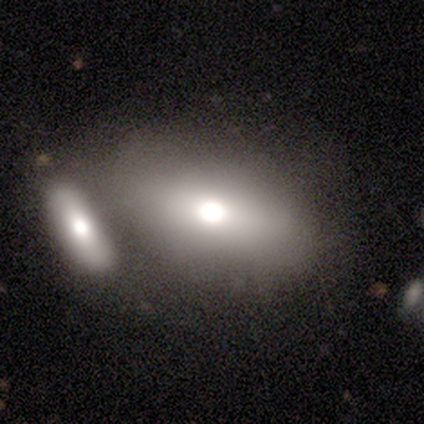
A smooth galaxy with no disk features (77%) that is in between round and cigar-shaped (83%). Merging: merger (55%).